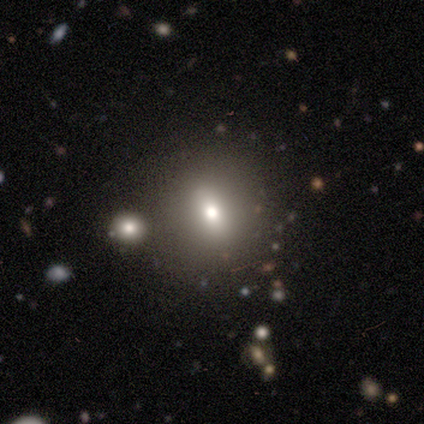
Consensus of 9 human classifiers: Smooth or featured? 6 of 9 (67%) said smooth. How rounded? 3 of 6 (50%, tied with in between) said round. Merging? 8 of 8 (100%) said none.